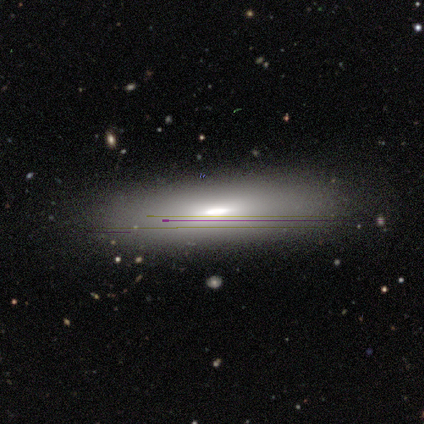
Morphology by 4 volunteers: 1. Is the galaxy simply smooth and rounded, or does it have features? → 50% smooth, 25% featured or disk, 25% star or artifact.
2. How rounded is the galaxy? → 50% in between (tied), 50% cigar-shaped (tied), 0% round.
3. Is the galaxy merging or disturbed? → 67% none, 33% minor disturbance, 0% major disturbance, 0% merger.